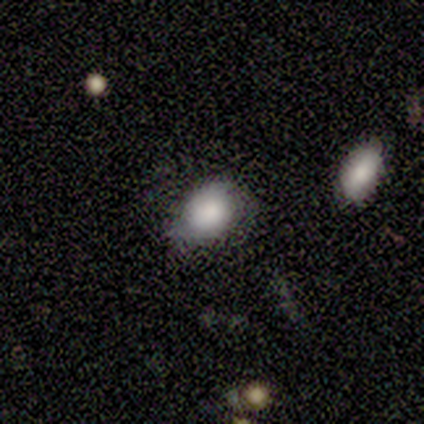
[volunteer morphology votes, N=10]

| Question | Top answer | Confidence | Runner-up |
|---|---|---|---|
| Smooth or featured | smooth | 100% | — |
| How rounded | round | 50% | tied: in between (50%) |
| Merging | none | 70% | major disturbance (20%) |